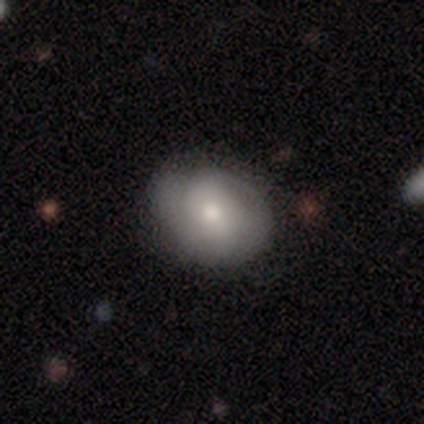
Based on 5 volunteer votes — A featured or disk galaxy (80%) with no bar (100%), 2 (50%, tied with can't tell) tight (100%) spiral arms (50%, tied with no) and a moderate central bulge (75%). Merging: none (80%).